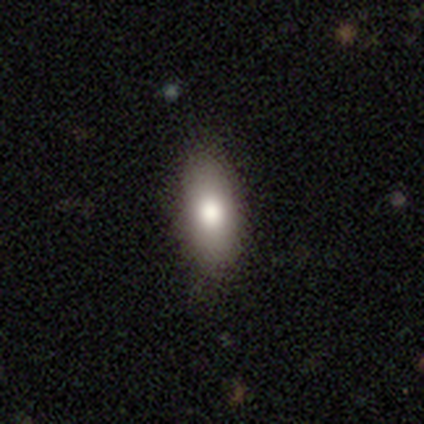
Smooth or featured?
  - smooth: 82% *
  - featured or disk: 12%
  - star or artifact: 5%
How rounded?
  - in between: 94% *
  - cigar-shaped: 6%
  - round: 0%
Merging?
  - none: 87% *
  - minor disturbance: 11%
  - merger: 3%
  - major disturbance: 0%